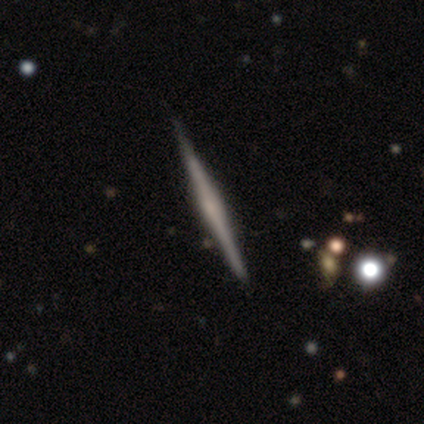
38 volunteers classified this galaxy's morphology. This is likely a featured or disk galaxy (71%). It is clearly viewed edge-on (96%). Edge-on bulge: possibly rounded (58%). Merging: clearly none (91%).